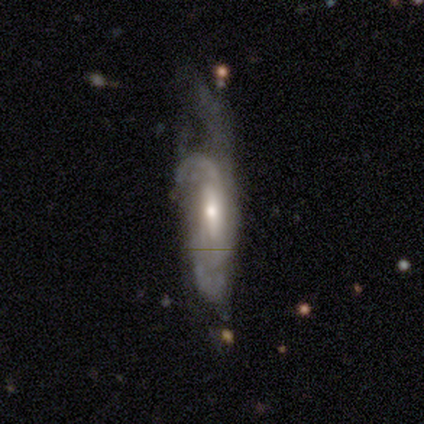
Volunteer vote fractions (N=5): Smooth or featured: featured or disk — 60% (smooth — 40%)
Edge-on disk: no — 67% (yes — 33%)
Bar: strong — 50% (tied with weak — 50%)
Spiral arms: yes — 50% (tied with no — 50%)
Spiral winding: tight — 100%
Spiral arm count: 2 — 100%
Bulge size: moderate — 50% (tied with small — 50%)
Merging: minor disturbance — 40% (tied with major disturbance — 40%)